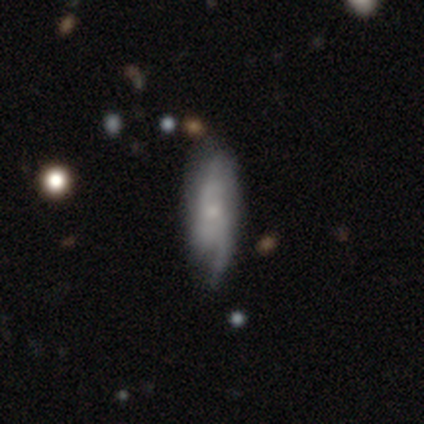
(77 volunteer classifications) This is likely a featured or disk galaxy (64%). It is clearly not viewed edge-on (82%). Bar: clearly no (88%). Spiral arm pattern: clearly yes (80%). Spiral arm count: marginally 2 (41%, tied with can't tell). Spiral winding: possibly medium (47%). Central bulge: clearly small (82%). Merging: marginally none (29%).